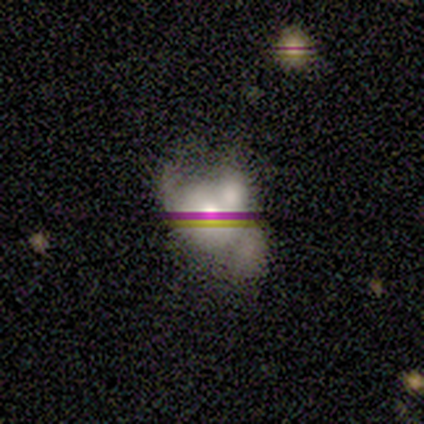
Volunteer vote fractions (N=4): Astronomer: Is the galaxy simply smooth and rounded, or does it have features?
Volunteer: star or artifact — 50%.